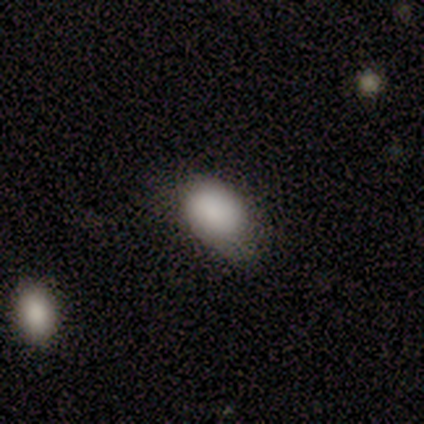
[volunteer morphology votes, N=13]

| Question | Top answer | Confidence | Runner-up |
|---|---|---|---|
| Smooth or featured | smooth | 100% | — |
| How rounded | in between | 100% | — |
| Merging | none | 62% | minor disturbance (38%) |